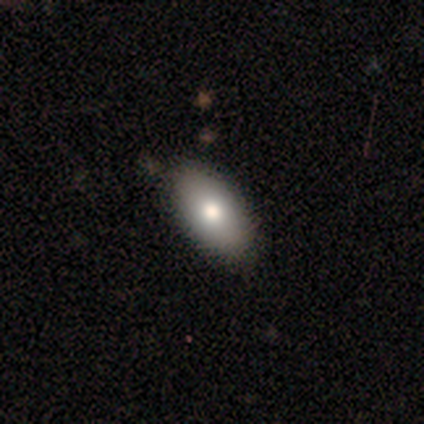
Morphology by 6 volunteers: smooth-or-featured: smooth: 83% | featured or disk: 17% | star or artifact: 0%
  how-rounded: in between: 100% | round: 0% | cigar-shaped: 0%
  merging: none: 100% | minor disturbance: 0% | major disturbance: 0% | merger: 0%